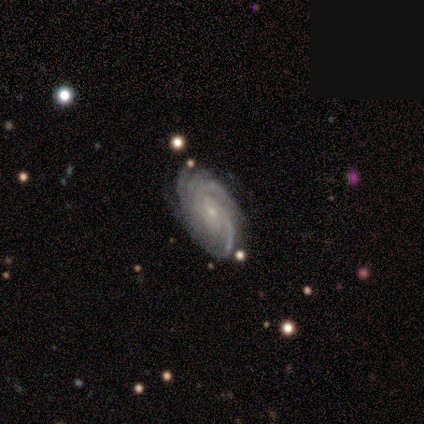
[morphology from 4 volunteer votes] A featured or disk galaxy (75%) with no bar (67%), 2 (33%, tied with 3 and 4) tight (67%) spiral arms (100%) and a small central bulge (67%).

Vote fractions:
- Smooth or featured? featured or disk: 75% / star or artifact: 25% / smooth: 0%
- Edge-on disk? no: 100% / yes: 0%
- Bar? no: 67% / weak: 33% / strong: 0%
- Spiral arms? yes: 100% / no: 0%
- Spiral winding? tight: 67% / medium: 33% / loose: 0%
- Spiral arm count? 2: 33% (tied) / 3: 33% (tied) / 4: 33% (tied) / 1: 0% / more than 4: 0% / can't tell: 0%
- Bulge size? small: 67% / moderate: 33% / dominant: 0% / large: 0% / none: 0%
- Merging? none: 67% / minor disturbance: 33% / major disturbance: 0% / merger: 0%